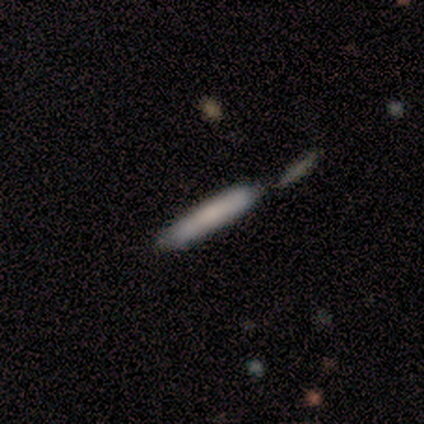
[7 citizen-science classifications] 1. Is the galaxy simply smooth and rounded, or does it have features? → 57% smooth, 43% featured or disk, 0% star or artifact.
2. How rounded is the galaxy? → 100% cigar-shaped, 0% round, 0% in between.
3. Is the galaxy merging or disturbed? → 100% none, 0% minor disturbance, 0% major disturbance, 0% merger.